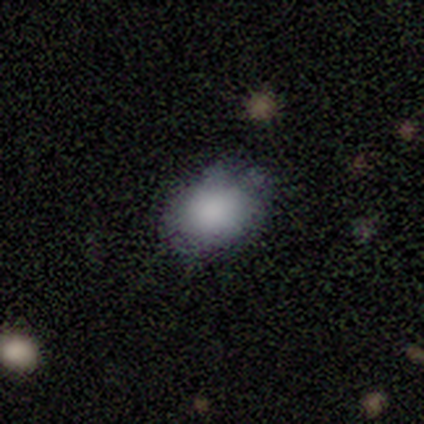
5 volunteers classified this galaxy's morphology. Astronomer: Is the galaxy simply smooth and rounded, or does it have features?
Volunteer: star or artifact — 60% (runner-up: smooth, 40%).